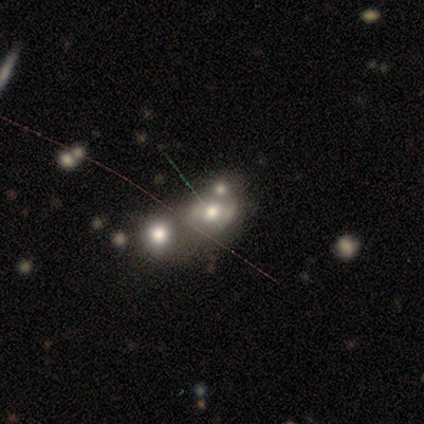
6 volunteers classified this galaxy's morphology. Volunteers were most divided on "smooth or featured": star or artifact: 67%, smooth: 17%, featured or disk: 17%.